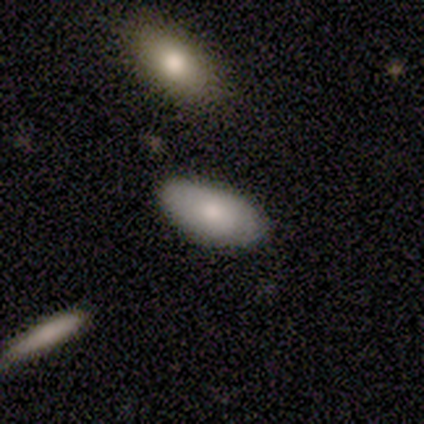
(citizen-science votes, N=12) smooth_or_featured: smooth (p=0.50) [alt: featured or disk p=0.42]
how_rounded: in between (p=1.00)
merging: none (p=1.00)